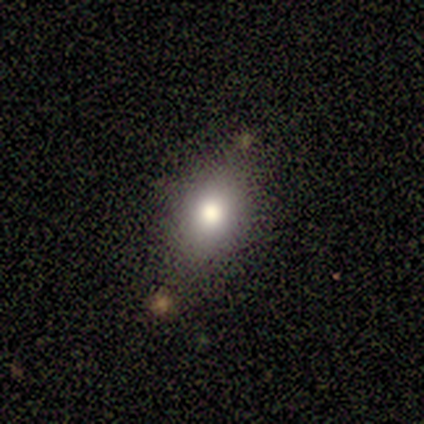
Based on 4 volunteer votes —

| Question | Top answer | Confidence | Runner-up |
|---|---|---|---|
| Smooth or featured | smooth | 75% | featured or disk (25%) |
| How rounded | in between | 67% | round (33%) |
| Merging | none | 75% | minor disturbance (25%) |